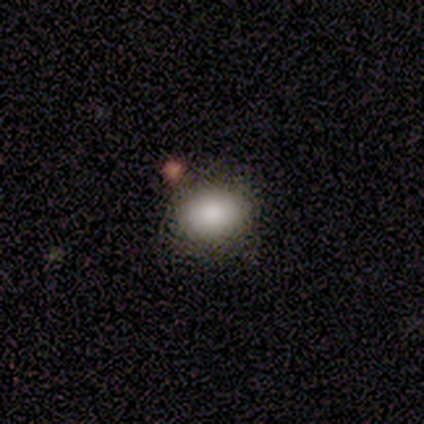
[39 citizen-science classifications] A smooth galaxy with no disk features (85%) that is in between round and cigar-shaped (67%).

Vote fractions:
- Smooth or featured? smooth: 85% / featured or disk: 10% / star or artifact: 5%
- How rounded? in between: 67% / round: 33% / cigar-shaped: 0%
- Merging? none: 78% / minor disturbance: 14% / merger: 8% / major disturbance: 0%